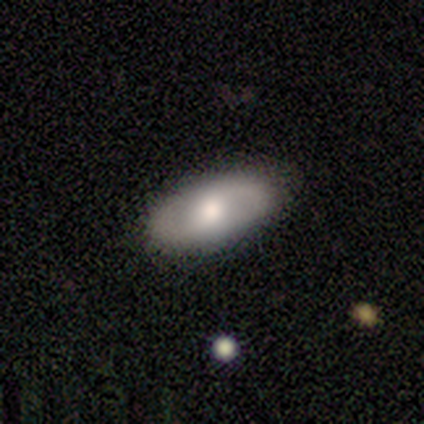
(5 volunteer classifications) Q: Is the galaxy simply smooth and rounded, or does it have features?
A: smooth — 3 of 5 (60%).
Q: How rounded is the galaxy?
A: in between — 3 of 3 (100%).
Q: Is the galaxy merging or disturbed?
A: none — 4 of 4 (100%).